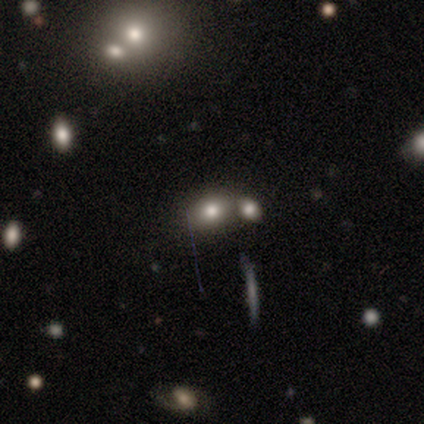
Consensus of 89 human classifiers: A smooth galaxy with no disk features (61%) that is in between round and cigar-shaped (61%).

Vote fractions:
- Smooth or featured? smooth: 61% / star or artifact: 24% / featured or disk: 16%
- How rounded? in between: 61% / round: 35% / cigar-shaped: 4%
- Merging? merger: 46% / none: 41% / minor disturbance: 12% / major disturbance: 1%